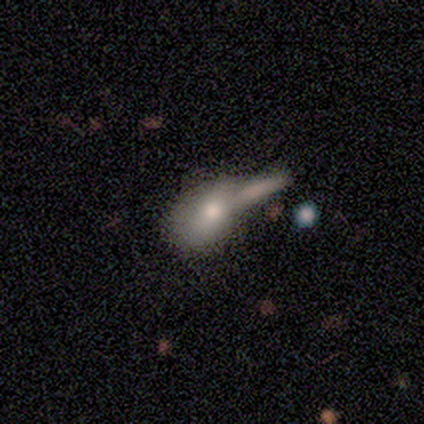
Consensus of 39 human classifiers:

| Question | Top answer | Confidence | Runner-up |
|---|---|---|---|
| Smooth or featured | smooth | 64% | featured or disk (31%) |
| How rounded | in between | 76% | round (20%) |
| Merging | merger | 57% | none (11%) |